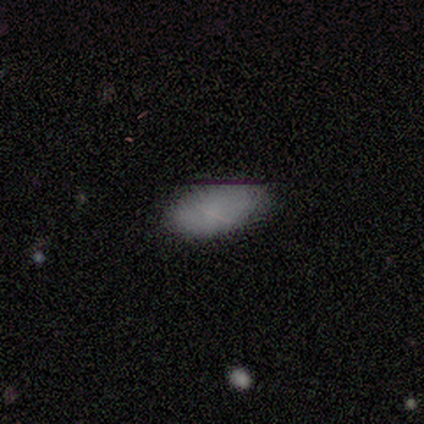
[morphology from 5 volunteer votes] Overall: smooth (80%). How rounded: in between (100%). Merging: none (100%).